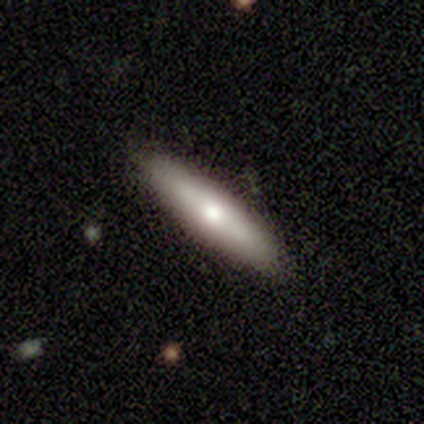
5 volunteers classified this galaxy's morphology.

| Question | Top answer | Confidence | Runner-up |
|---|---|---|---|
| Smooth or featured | featured or disk | 60% | smooth (40%) |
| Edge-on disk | yes | 100% | — |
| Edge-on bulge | rounded | 67% | boxy (33%) |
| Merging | none | 80% | minor disturbance (20%) |